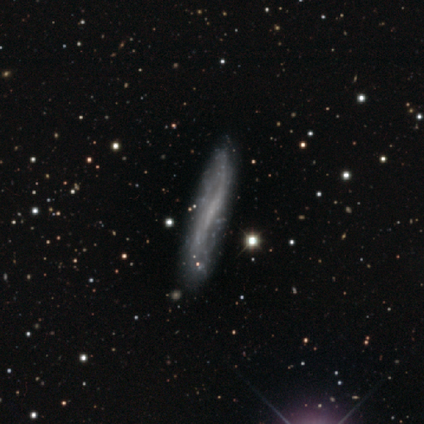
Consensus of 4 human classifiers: smooth_or_featured: smooth (p=0.50) [tied with: featured or disk p=0.50]
how_rounded: cigar-shaped (p=1.00)
merging: none (p=1.00)